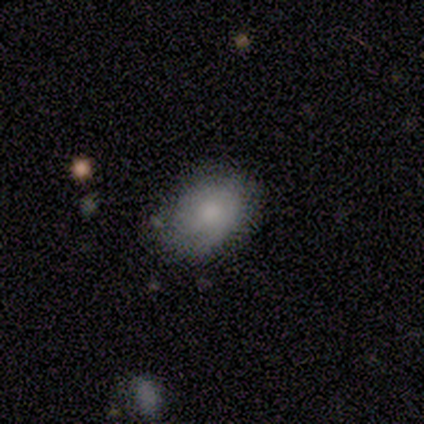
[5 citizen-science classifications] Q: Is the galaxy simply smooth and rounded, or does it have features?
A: smooth — 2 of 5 (40%, tied with star or artifact).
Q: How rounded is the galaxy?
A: round — 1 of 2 (50%, tied with in between).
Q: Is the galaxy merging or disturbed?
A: none — 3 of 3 (100%).